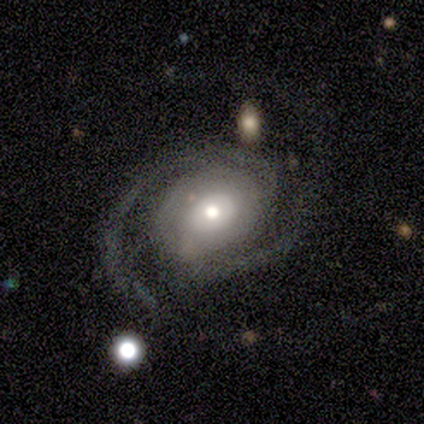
This is clearly a featured or disk galaxy (90%). It is clearly not viewed edge-on (98%). Bar: clearly no (86%). Spiral arm pattern: clearly yes (98%). Spiral arm count: clearly 2 (91%). Spiral winding: marginally tight (39%, tied with medium). Central bulge: possibly moderate (57%). Merging: likely none (69%).